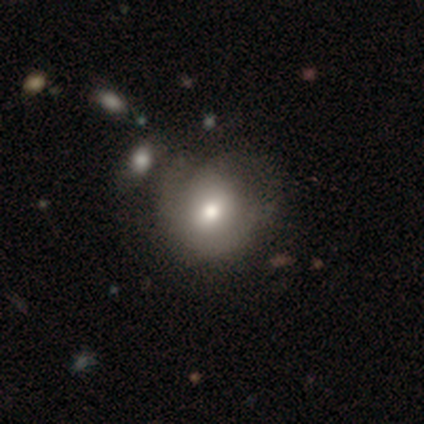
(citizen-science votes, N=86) Overall: smooth (60%; featured or disk 28%). How rounded: round (83%). Merging: none (50%; minor disturbance 29%).